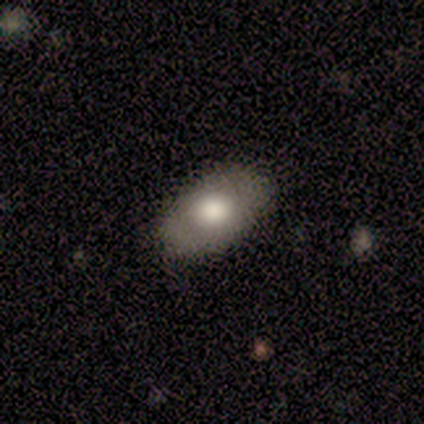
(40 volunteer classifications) This appears to be a smooth galaxy with no disk features (55%) that is in between round and cigar-shaped (95%). Merging: none (62%).